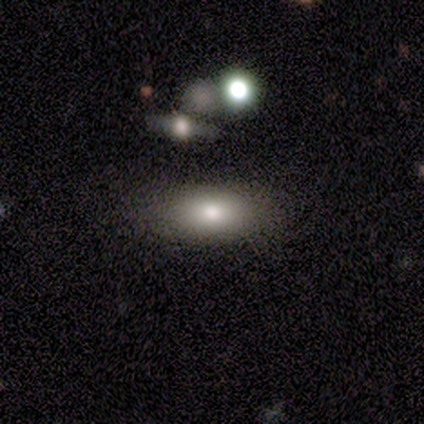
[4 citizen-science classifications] A smooth galaxy with no disk features (75%) that is in between round and cigar-shaped (100%).

Vote fractions:
- Smooth or featured? smooth: 75% / featured or disk: 25% / star or artifact: 0%
- How rounded? in between: 100% / round: 0% / cigar-shaped: 0%
- Merging? none: 75% / minor disturbance: 25% / major disturbance: 0% / merger: 0%